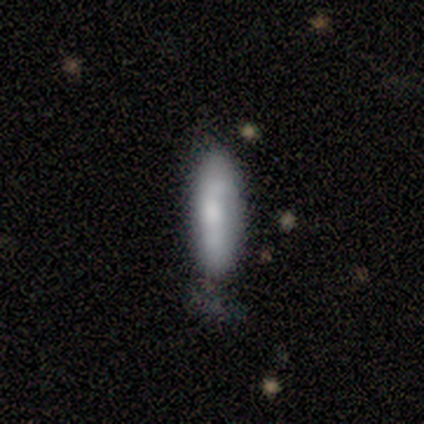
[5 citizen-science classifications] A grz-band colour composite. It shows a smooth galaxy with no disk features (80%) that is cigar-shaped (75%). Merging: none (60%).